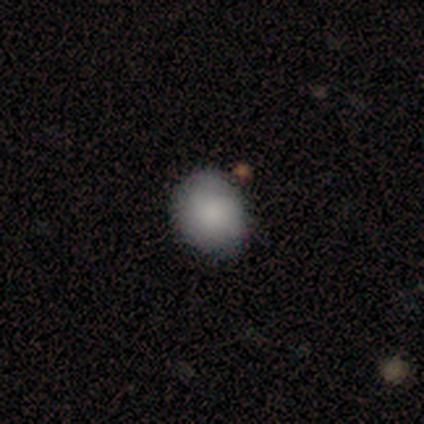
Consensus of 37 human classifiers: Smooth or featured: smooth — 97% (star or artifact — 3%)
How rounded: round — 72% (in between — 28%)
Merging: none — 81% (minor disturbance — 11%)